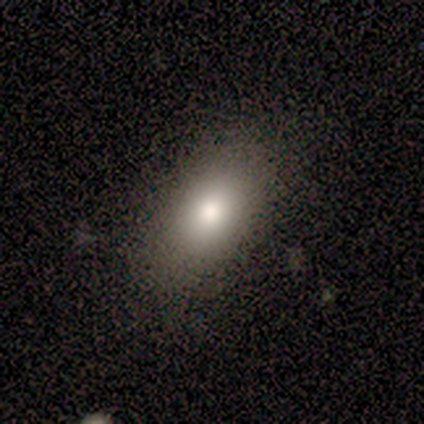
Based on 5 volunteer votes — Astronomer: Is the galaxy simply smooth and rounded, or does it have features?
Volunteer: smooth — 80%.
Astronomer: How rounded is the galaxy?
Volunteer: in between — 100%.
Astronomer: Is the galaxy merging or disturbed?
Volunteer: none — 80%.